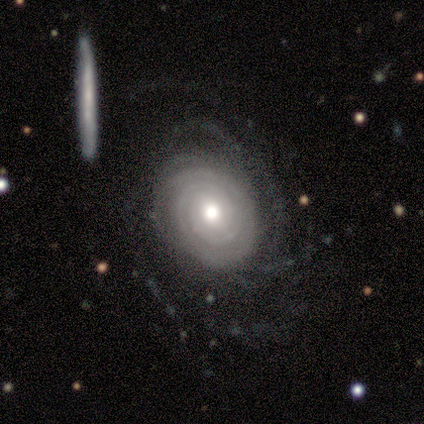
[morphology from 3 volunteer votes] Q: Smooth or featured?
A: featured or disk (100%)
Q: Edge-on disk?
A: no (100%)
Q: Bar?
A: no (67%); runner-up: weak (33%)
Q: Spiral arms?
A: yes (100%)
Q: Spiral winding?
A: tight (100%)
Q: Spiral arm count?
A: 3 (33%); tied with: more than 4 (33%); can't tell (33%)
Q: Bulge size?
A: large (33%); tied with: moderate (33%); small (33%)
Q: Merging?
A: none (100%)